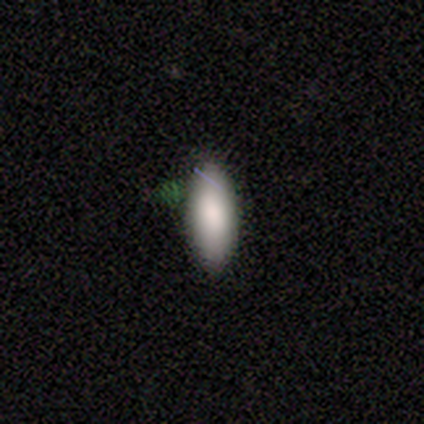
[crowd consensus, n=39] This appears to be a smooth galaxy with no disk features (85%) that is in between round and cigar-shaped (73%). Merging: none (91%).